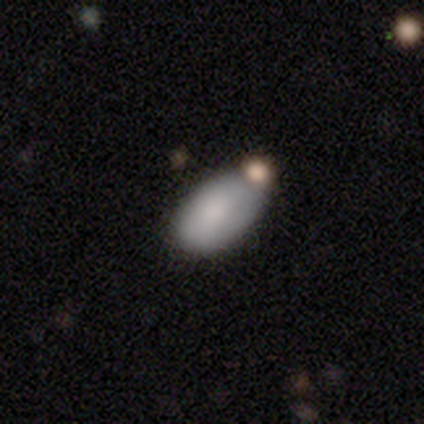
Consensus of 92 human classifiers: A smooth galaxy with no disk features (80%) that is in between round and cigar-shaped (99%). Merging: none (61%).